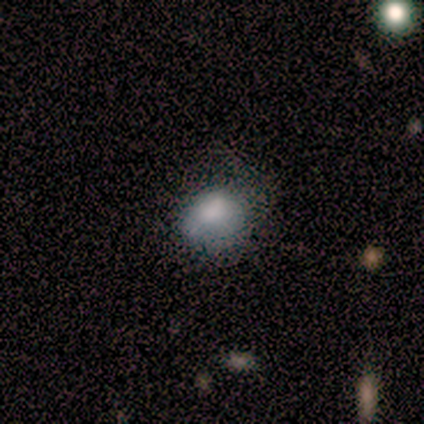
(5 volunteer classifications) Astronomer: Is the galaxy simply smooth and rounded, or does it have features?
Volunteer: smooth — 80%.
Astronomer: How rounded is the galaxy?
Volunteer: in between — 75%.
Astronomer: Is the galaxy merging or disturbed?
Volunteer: minor disturbance — 80%.